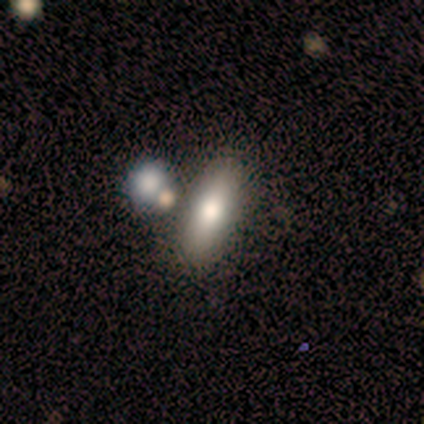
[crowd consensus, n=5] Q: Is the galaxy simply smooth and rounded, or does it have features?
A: smooth — 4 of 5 (80%).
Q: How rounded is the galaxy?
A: cigar-shaped — 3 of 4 (75%).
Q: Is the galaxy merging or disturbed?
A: none — 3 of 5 (60%).